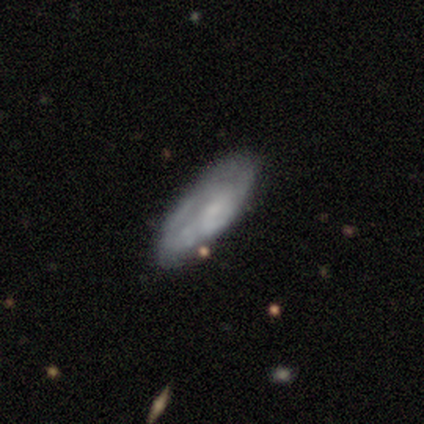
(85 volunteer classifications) A smooth galaxy with no disk features (60%) that is in between round and cigar-shaped (71%).

Vote fractions:
- Smooth or featured? smooth: 60% / featured or disk: 32% / star or artifact: 8%
- How rounded? in between: 71% / cigar-shaped: 29% / round: 0%
- Merging? none: 64% / minor disturbance: 27% / major disturbance: 6% / merger: 3%